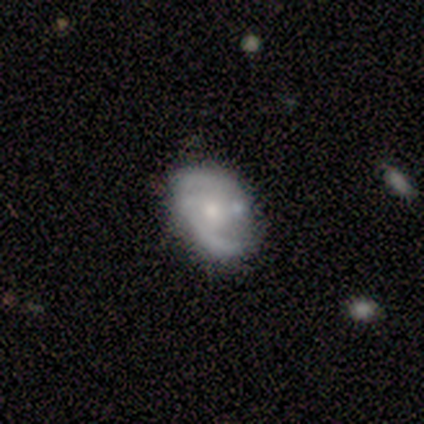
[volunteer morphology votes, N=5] This appears to be a smooth galaxy with no disk features (40%, tied with featured or disk) that is round (50%, tied with in between). Merging: none (50%, tied with major disturbance).